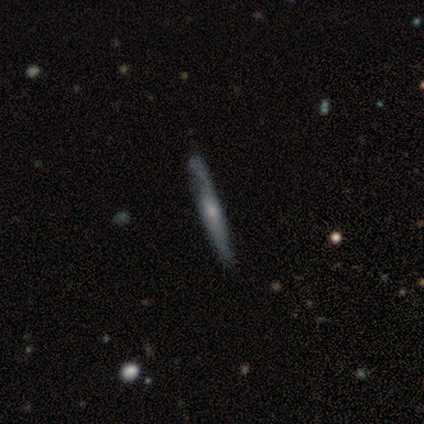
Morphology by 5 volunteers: Overall: featured or disk (100%). Edge-on disk: yes (100%). Edge-on bulge: rounded (80%). Merging: none (80%).